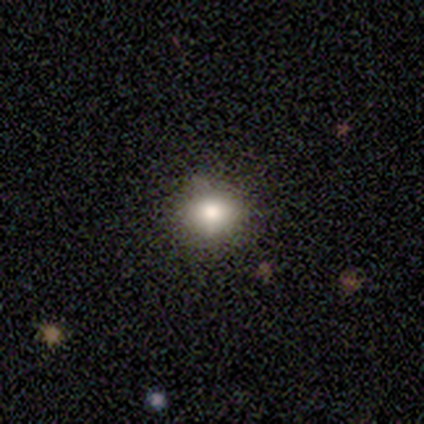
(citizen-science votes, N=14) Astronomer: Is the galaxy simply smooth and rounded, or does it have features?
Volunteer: smooth — 64%.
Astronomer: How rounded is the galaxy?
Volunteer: round — 78%.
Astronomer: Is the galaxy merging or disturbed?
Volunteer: none — 100%.